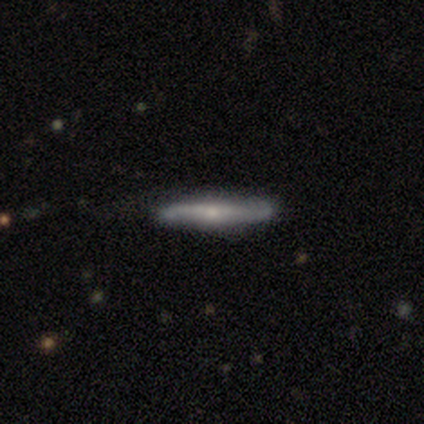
featured or disk 68%, smooth 32%, star or artifact 0%. Down the decision tree: edge-on disk — yes (85%); edge-on bulge — rounded (78%); merging — none (70%).